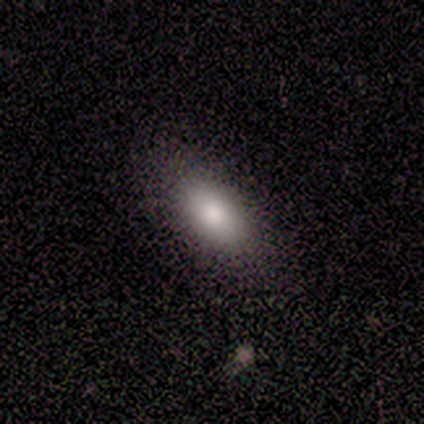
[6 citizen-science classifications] Smooth or featured: smooth — 67% (featured or disk — 17%)
How rounded: in between — 100%
Merging: none — 60% (minor disturbance — 40%)